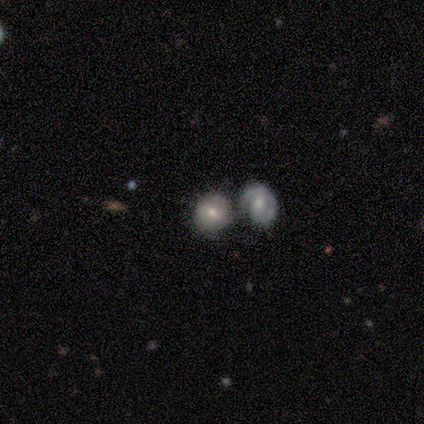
Smooth or featured?
  - smooth: 56% *
  - featured or disk: 36%
  - star or artifact: 8%
How rounded?
  - round: 82% *
  - in between: 18%
  - cigar-shaped: 0%
Merging?
  - merger: 61% *
  - none: 20%
  - minor disturbance: 20%
  - major disturbance: 0%